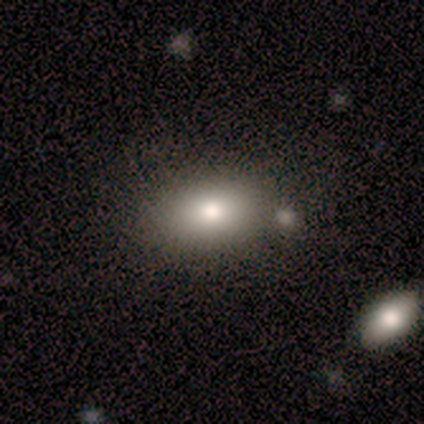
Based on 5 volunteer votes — Smooth or featured: smooth — 60% (featured or disk — 20%)
How rounded: in between — 100%
Merging: none — 75% (merger — 25%)